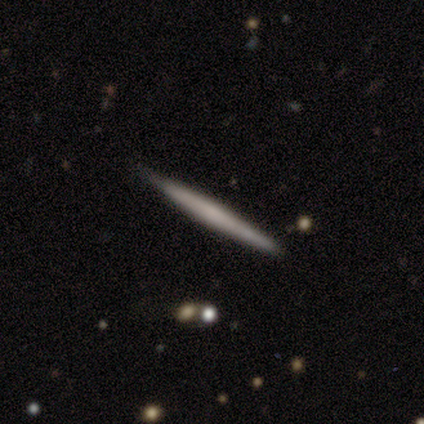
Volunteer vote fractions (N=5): Q: Smooth or featured?
A: featured or disk (60%); runner-up: smooth (40%)
Q: Edge-on disk?
A: yes (100%)
Q: Edge-on bulge?
A: none (100%)
Q: Merging?
A: none (100%)